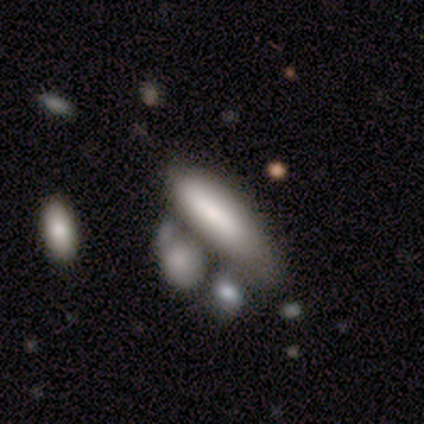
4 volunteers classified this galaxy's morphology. smooth-or-featured: smooth: 50% (tied) | featured or disk: 50% (tied) | star or artifact: 0%
  how-rounded: cigar-shaped: 100% | round: 0% | in between: 0%
  merging: none: 50% | minor disturbance: 25% | merger: 25% | major disturbance: 0%